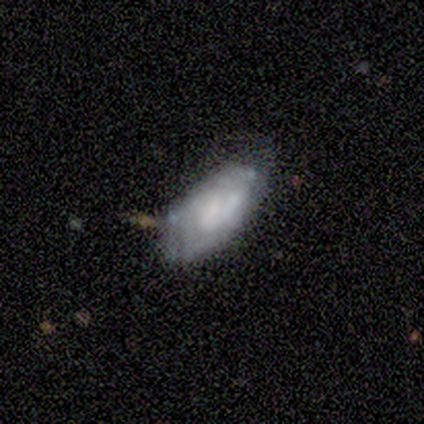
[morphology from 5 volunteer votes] Smooth or featured: featured or disk — 80% (star or artifact — 20%)
Edge-on disk: no — 100%
Bar: no — 100%
Spiral arms: yes — 100%
Spiral winding: tight — 100%
Spiral arm count: can't tell — 75% (3 — 25%)
Bulge size: small — 50% (tied with none — 50%)
Merging: minor disturbance — 50% (none — 25%)